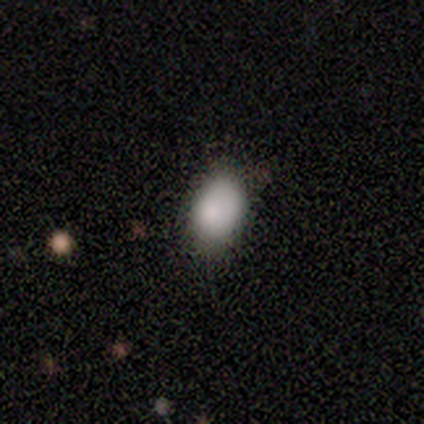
Q: Smooth or featured?
A: smooth (100%)
Q: How rounded?
A: in between (88%); runner-up: round (12%)
Q: Merging?
A: none (75%); runner-up: minor disturbance (25%)